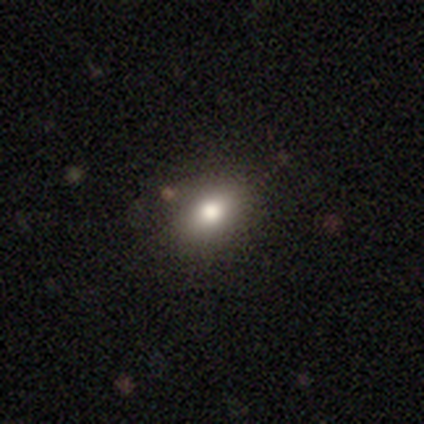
Volunteers were most divided on "merging": none: 44%, minor disturbance: 6%, major disturbance: 1%, merger: 0%. More confident: smooth or featured — smooth (76%); how rounded — in between (73%).